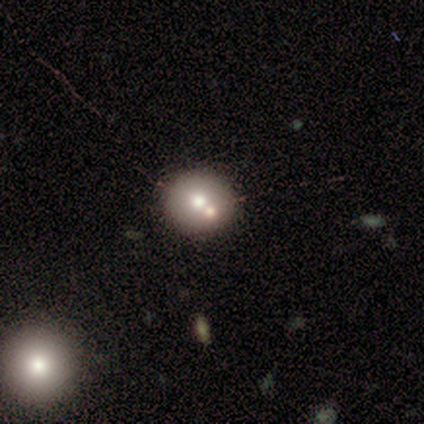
A smooth galaxy with no disk features (60%) that is round (100%).

Vote fractions:
- Smooth or featured? smooth: 60% / featured or disk: 40% / star or artifact: 0%
- How rounded? round: 100% / in between: 0% / cigar-shaped: 0%
- Merging? none: 80% / merger: 20% / minor disturbance: 0% / major disturbance: 0%